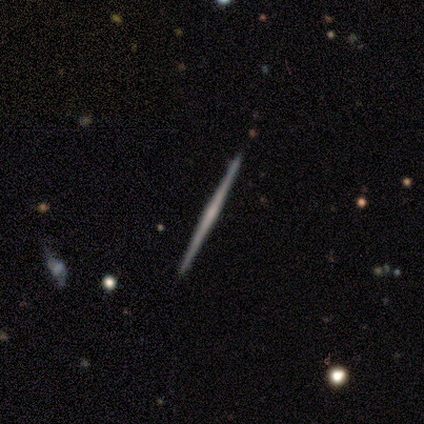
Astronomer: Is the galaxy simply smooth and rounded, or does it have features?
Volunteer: featured or disk — 86%.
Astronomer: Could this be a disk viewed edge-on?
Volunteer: yes — 100%.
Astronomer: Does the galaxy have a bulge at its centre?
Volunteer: none — 67%.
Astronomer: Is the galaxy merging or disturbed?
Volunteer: none — 100%.